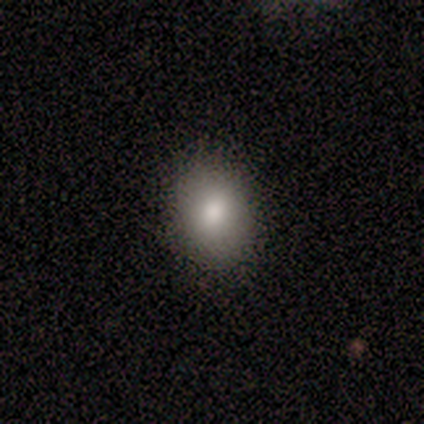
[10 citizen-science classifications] A smooth galaxy with no disk features (70%) that is in between round and cigar-shaped (57%).

Vote fractions:
- Smooth or featured? smooth: 70% / featured or disk: 20% / star or artifact: 10%
- How rounded? in between: 57% / round: 43% / cigar-shaped: 0%
- Merging? none: 100% / minor disturbance: 0% / major disturbance: 0% / merger: 0%